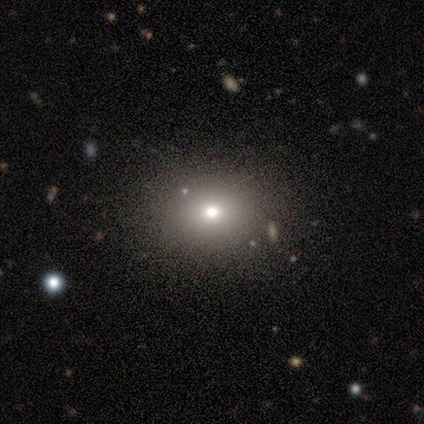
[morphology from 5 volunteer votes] A smooth galaxy with no disk features (80%) that is round (75%). Merging: none (80%).